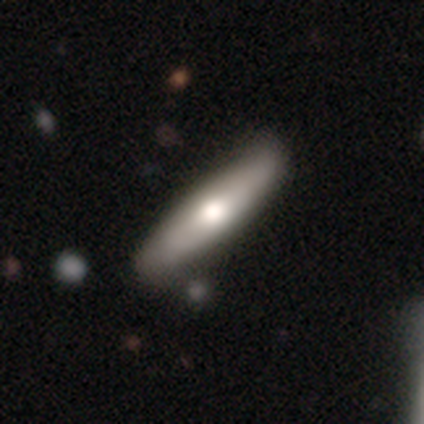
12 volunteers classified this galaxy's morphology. smooth_or_featured: smooth (p=0.58) [alt: featured or disk p=0.33]
how_rounded: cigar-shaped (p=1.00)
merging: none (p=0.73) [alt: minor disturbance p=0.18]